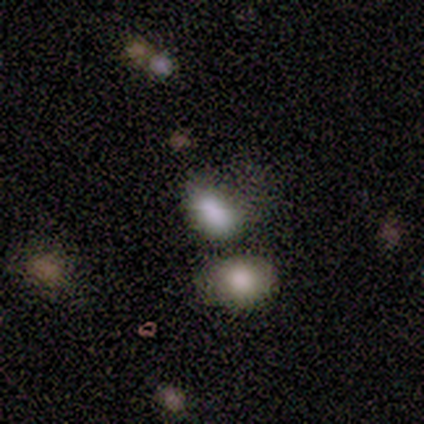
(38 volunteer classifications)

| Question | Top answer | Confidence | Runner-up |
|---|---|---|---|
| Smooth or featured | smooth | 84% | star or artifact (11%) |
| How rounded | in between | 88% | round (9%) |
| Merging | none | 41% | major disturbance (29%) |